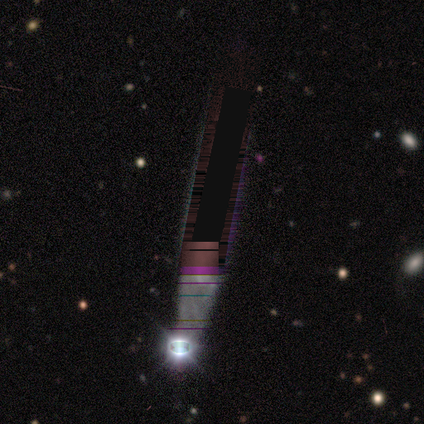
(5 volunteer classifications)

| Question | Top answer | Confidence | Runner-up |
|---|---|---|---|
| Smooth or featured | star or artifact | 100% | — |